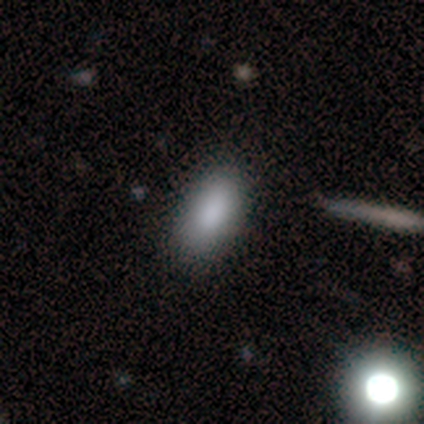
Smooth or featured?
  - smooth: 92% *
  - featured or disk: 5%
  - star or artifact: 3%
How rounded?
  - in between: 91% *
  - cigar-shaped: 9%
  - round: 0%
Merging?
  - none: 81% *
  - minor disturbance: 11%
  - major disturbance: 5%
  - merger: 3%